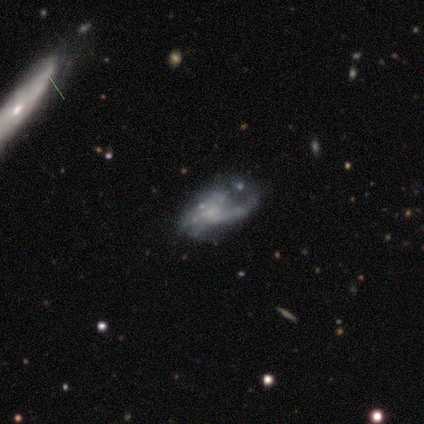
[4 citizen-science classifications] Smooth or featured? 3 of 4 (75%) said featured or disk. Edge-on disk? 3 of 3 (100%) said no. Bar? 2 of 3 (67%) said no. Spiral arms? 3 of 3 (100%) said yes. Spiral winding? 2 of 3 (67%) said medium. Spiral arm count? 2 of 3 (67%) said 1. Bulge size? 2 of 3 (67%) said small. Merging? 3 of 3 (100%) said none.